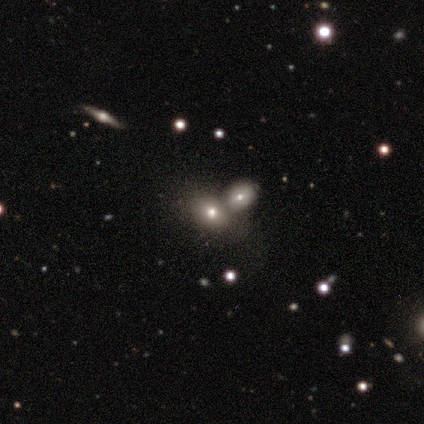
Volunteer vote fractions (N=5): Overall: smooth (100%). How rounded: in between (60%; round 40%). Merging: none (60%; merger 40%).